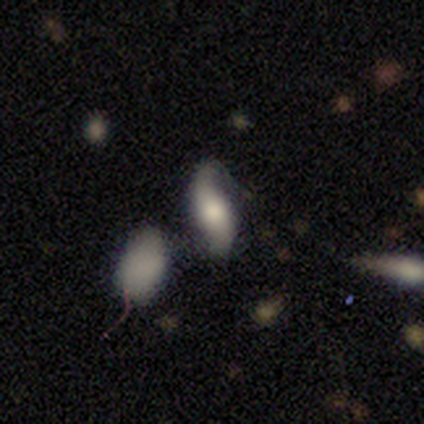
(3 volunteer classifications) This appears to be a featured or disk galaxy (100%) with a strong bar (50%, tied with no), 2 (100%) loose (100%) spiral arms (100%) and a moderate central bulge (100%). Merging: none (67%).